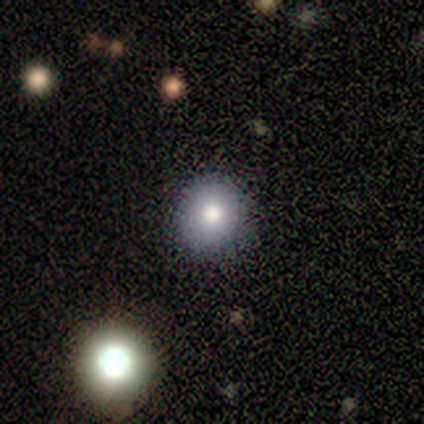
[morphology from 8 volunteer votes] Smooth or featured? 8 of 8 (100%) said smooth. How rounded? 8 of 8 (100%) said round. Merging? 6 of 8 (75%) said none.